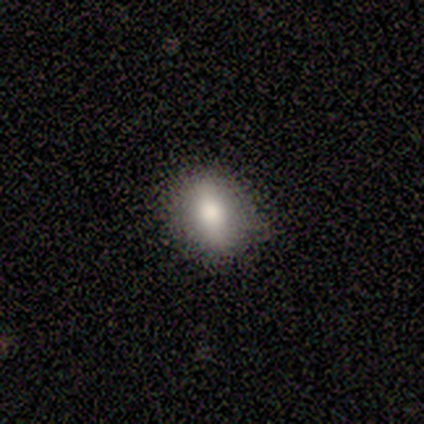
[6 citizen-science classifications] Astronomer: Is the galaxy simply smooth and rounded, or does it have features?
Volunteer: smooth — 67%.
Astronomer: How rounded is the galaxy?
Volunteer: in between — 50%.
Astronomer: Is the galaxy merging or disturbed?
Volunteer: none — 100%.